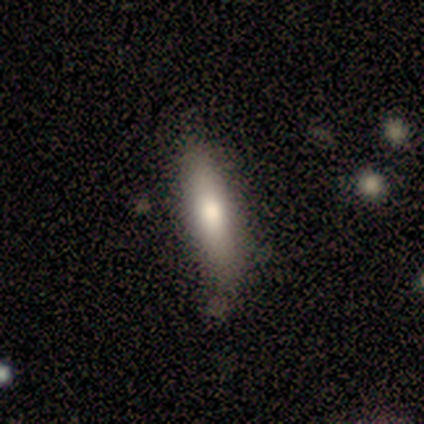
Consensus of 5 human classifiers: This appears to be a smooth galaxy with no disk features (80%) that is in between round and cigar-shaped (50%, tied with cigar-shaped). Merging: none (75%).